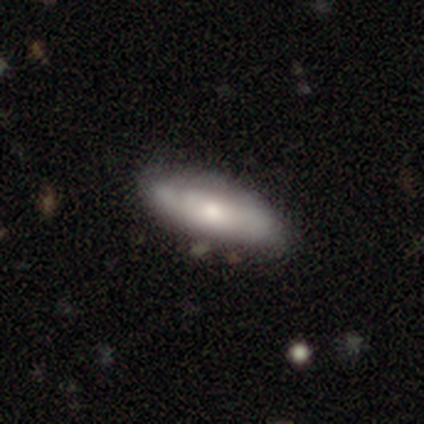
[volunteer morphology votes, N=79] type=smooth (51%); roundness=in between (70%); merging=none (49%).